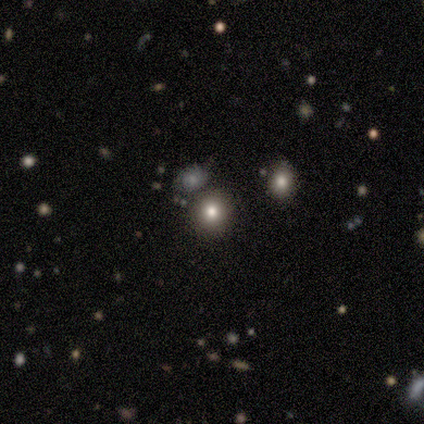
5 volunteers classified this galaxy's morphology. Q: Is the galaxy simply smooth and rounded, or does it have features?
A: smooth — 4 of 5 (80%).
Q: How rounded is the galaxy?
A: round — 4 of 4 (100%).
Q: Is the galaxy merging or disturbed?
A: none — 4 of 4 (100%).